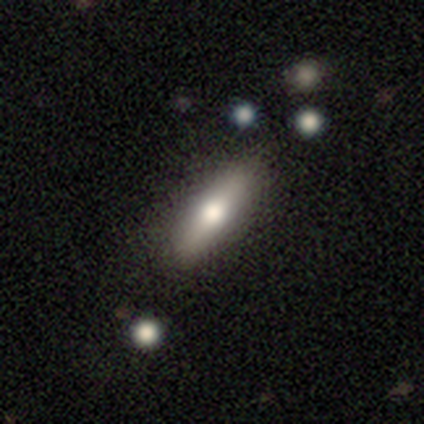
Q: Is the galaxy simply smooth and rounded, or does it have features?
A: smooth — 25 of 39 (64%).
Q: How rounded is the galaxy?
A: cigar-shaped — 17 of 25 (68%).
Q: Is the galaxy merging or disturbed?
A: none — 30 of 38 (79%).